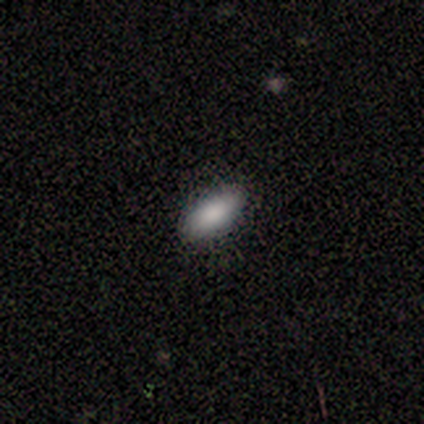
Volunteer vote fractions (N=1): Smooth or featured? 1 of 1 (100%) said smooth. How rounded? 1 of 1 (100%) said in between. Merging? 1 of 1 (100%) said none.